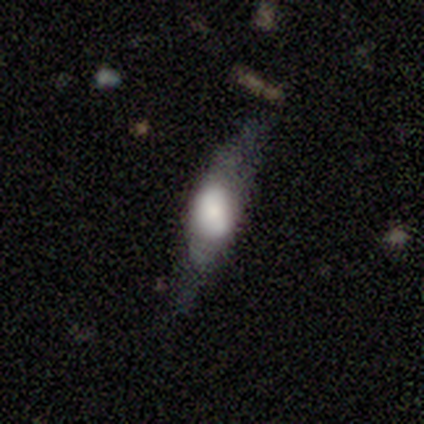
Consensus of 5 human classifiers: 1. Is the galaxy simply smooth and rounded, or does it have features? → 60% featured or disk, 20% smooth, 20% star or artifact.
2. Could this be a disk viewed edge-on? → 67% no, 33% yes.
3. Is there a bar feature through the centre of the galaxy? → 50% strong (tied), 50% weak (tied), 0% no.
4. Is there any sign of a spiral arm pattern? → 50% yes (tied), 50% no (tied).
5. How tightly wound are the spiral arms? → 100% loose, 0% tight, 0% medium.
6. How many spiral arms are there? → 100% 2, 0% 1, 0% 3, 0% 4, 0% more than 4, 0% can't tell.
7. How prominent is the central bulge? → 50% dominant (tied), 50% large (tied), 0% moderate, 0% small, 0% none.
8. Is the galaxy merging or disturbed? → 75% none, 25% major disturbance, 0% minor disturbance, 0% merger.